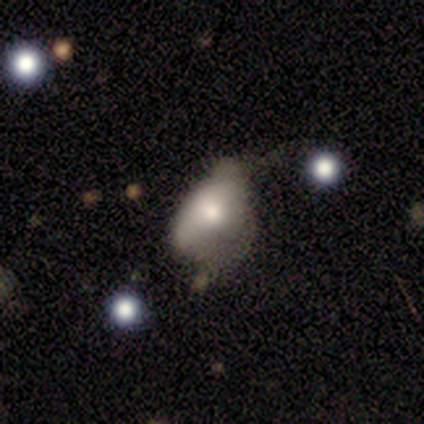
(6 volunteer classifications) Q: Smooth or featured?
A: smooth (67%); runner-up: featured or disk (33%)
Q: How rounded?
A: in between (75%); runner-up: cigar-shaped (25%)
Q: Merging?
A: minor disturbance (33%); tied with: major disturbance (33%)